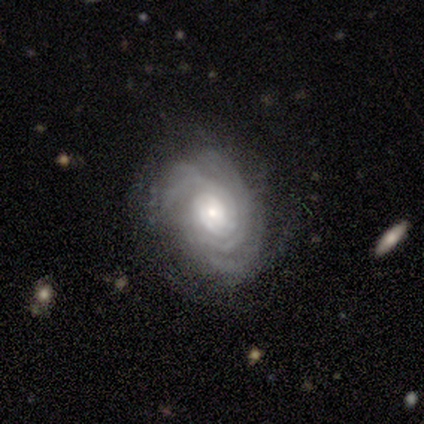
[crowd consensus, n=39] featured or disk 87%, smooth 8%, star or artifact 5%. Down the decision tree: edge-on disk — no (100%); bar — no (79%); spiral arms — yes (100%); spiral arm count — can't tell (32%); spiral winding — tight (97%); bulge size — moderate (53%); merging — none (76%).